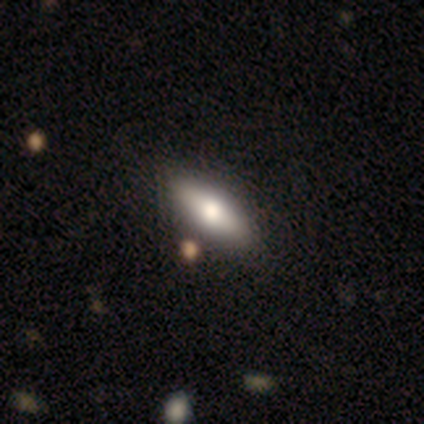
Overall: smooth (100%). How rounded: in between (40%, tied with cigar-shaped). Merging: none (100%).